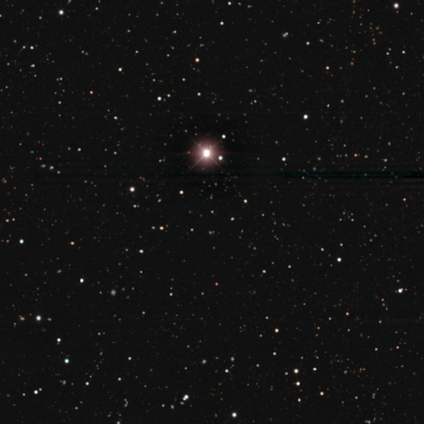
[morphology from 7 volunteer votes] smooth_or_featured: star or artifact (p=0.86) [alt: smooth p=0.14]